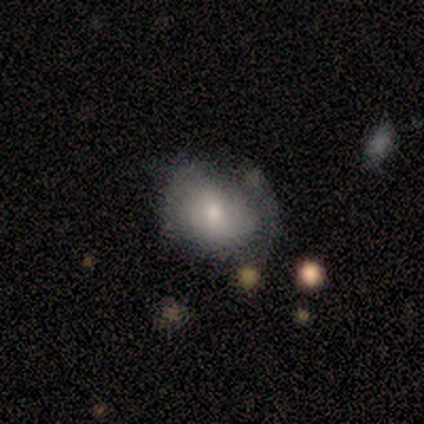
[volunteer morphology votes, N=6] Smooth or featured? 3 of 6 (50%) said smooth. How rounded? 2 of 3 (67%) said round. Merging? 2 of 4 (50%) said minor disturbance.